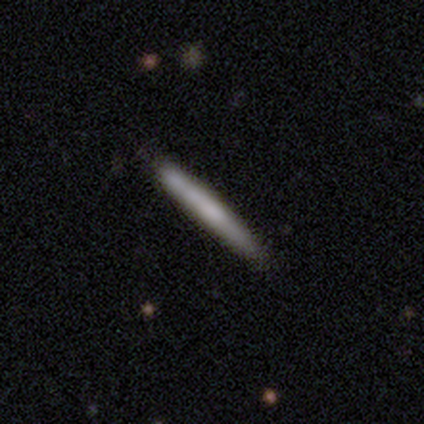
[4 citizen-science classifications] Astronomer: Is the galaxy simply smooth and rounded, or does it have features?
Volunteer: smooth — 50%, tied with featured or disk at 50%.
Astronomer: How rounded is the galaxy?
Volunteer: cigar-shaped — 100%.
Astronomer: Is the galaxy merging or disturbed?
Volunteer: none — 100%.